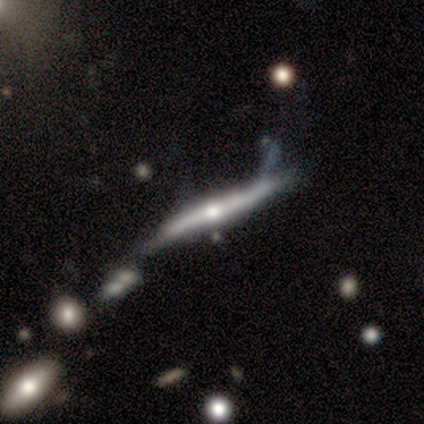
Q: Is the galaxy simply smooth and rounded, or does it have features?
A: featured or disk — 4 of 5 (80%).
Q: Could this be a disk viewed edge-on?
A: yes — 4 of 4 (100%).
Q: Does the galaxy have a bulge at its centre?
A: rounded — 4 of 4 (100%).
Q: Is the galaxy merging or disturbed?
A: none — 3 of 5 (60%).